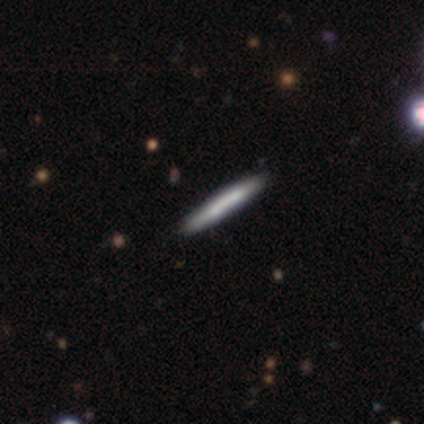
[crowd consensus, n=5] Overall: featured or disk (80%). Edge-on disk: yes (100%). Edge-on bulge: none (75%). Merging: none (80%).